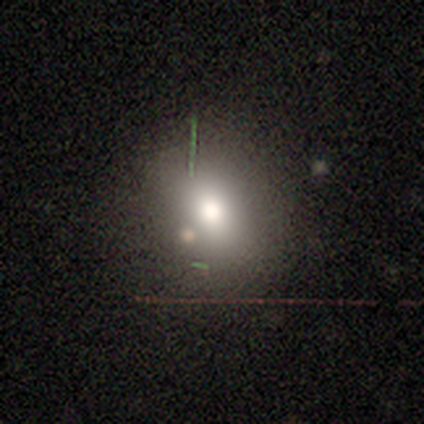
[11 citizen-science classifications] Overall: smooth (73%). How rounded: round (50%, tied with in between). Merging: none (89%).